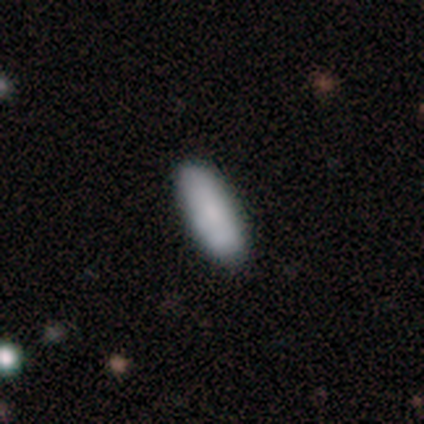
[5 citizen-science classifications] smooth-or-featured: smooth: 100% | featured or disk: 0% | star or artifact: 0%
  how-rounded: in between: 100% | round: 0% | cigar-shaped: 0%
  merging: none: 100% | minor disturbance: 0% | major disturbance: 0% | merger: 0%